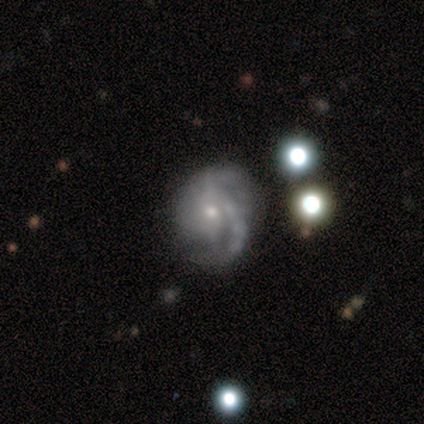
Q: Smooth or featured?
A: featured or disk (50%); runner-up: smooth (25%)
Q: Edge-on disk?
A: no (100%)
Q: Bar?
A: weak (100%)
Q: Spiral arms?
A: yes (100%)
Q: Spiral winding?
A: medium (50%); tied with: loose (50%)
Q: Spiral arm count?
A: 1 (50%); tied with: 2 (50%)
Q: Bulge size?
A: small (100%)
Q: Merging?
A: none (100%)